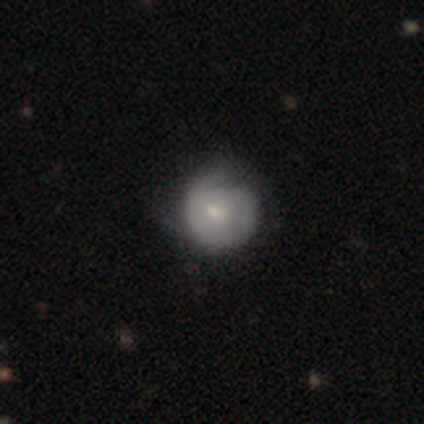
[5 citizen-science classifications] featured or disk 60%, smooth 20%, star or artifact 20%. Down the decision tree: edge-on disk — no (100%); bar — no (100%); spiral arms — yes (67%); spiral arm count — 2 (50%, tied with can't tell); spiral winding — tight (50%, tied with medium); bulge size — moderate (67%); merging — none (50%, tied with minor disturbance).